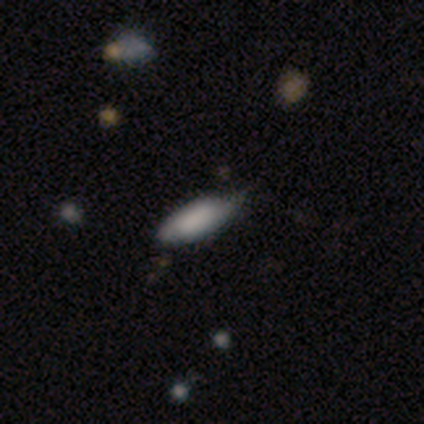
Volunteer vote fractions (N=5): This appears to be a smooth galaxy with no disk features (100%) that is in between round and cigar-shaped (100%). Merging: minor disturbance (60%).